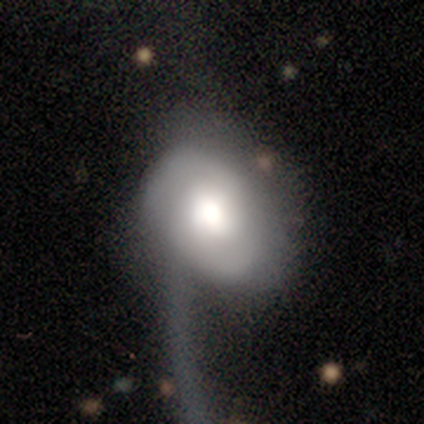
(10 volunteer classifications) A featured or disk galaxy (60%) with no bar (83%), 2 (60%) loose (60%) spiral arms (83%) and a large central bulge (50%).

Vote fractions:
- Smooth or featured? featured or disk: 60% / smooth: 40% / star or artifact: 0%
- Edge-on disk? no: 100% / yes: 0%
- Bar? no: 83% / weak: 17% / strong: 0%
- Spiral arms? yes: 83% / no: 17%
- Spiral winding? loose: 60% / tight: 40% / medium: 0%
- Spiral arm count? 2: 60% / 1: 20% / can't tell: 20% / 3: 0% / 4: 0% / more than 4: 0%
- Bulge size? large: 50% / moderate: 33% / small: 17% / dominant: 0% / none: 0%
- Merging? major disturbance: 80% / none: 20% / minor disturbance: 0% / merger: 0%